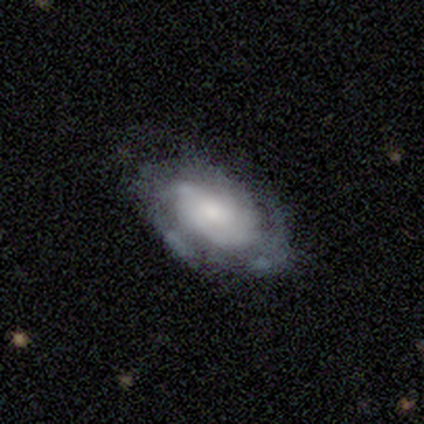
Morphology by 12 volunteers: Smooth or featured?
  - featured or disk: 67% *
  - smooth: 33%
  - star or artifact: 0%
Edge-on disk?
  - no: 100% *
  - yes: 0%
Bar?
  - no: 88% *
  - weak: 12%
  - strong: 0%
Spiral arms?
  - yes: 100% *
  - no: 0%
Spiral winding?
  - medium: 62% *
  - tight: 25%
  - loose: 12%
Spiral arm count?
  - 2: 38% * (tied)
  - 3: 38% * (tied)
  - can't tell: 25%
  - 1: 0%
  - 4: 0%
  - more than 4: 0%
Bulge size?
  - moderate: 50% *
  - large: 25%
  - small: 12%
  - none: 12%
  - dominant: 0%
Merging?
  - none: 50% *
  - minor disturbance: 42%
  - major disturbance: 8%
  - merger: 0%